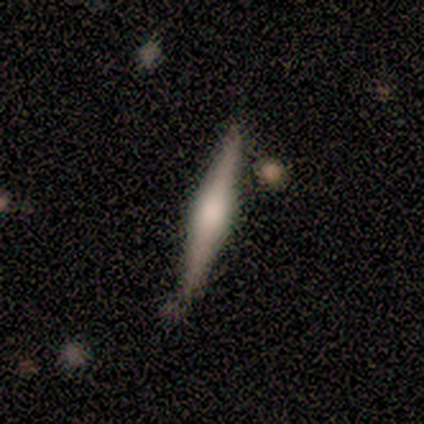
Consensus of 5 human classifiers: smooth-or-featured: featured or disk: 80% | smooth: 20% | star or artifact: 0%
  disk-edge-on: yes: 100% | no: 0%
    edge-on-bulge: rounded: 100% | boxy: 0% | none: 0%
  merging: none: 60% | minor disturbance: 40% | major disturbance: 0% | merger: 0%